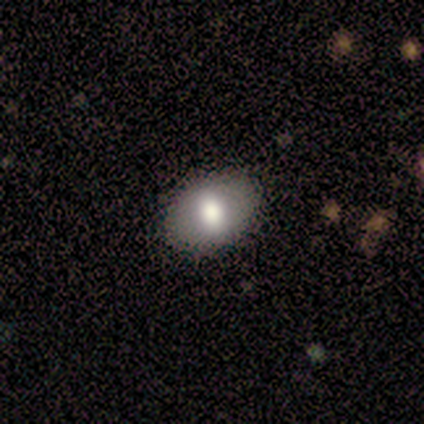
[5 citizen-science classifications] A smooth galaxy with no disk features (100%) that is in between round and cigar-shaped (100%). Merging: none (80%).